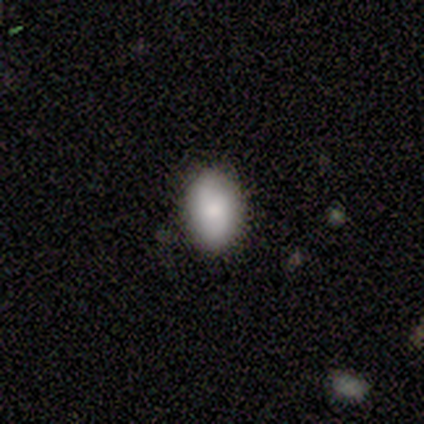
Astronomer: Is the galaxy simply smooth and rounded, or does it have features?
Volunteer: smooth — 80%.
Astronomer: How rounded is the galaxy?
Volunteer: round — 50%, tied with in between at 50%.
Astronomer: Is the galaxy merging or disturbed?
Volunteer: none — 60% (runner-up: minor disturbance, 40%).